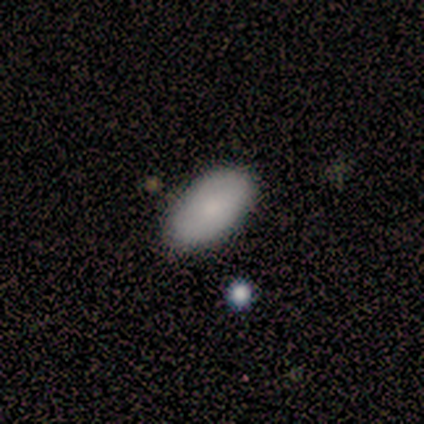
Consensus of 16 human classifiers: Smooth or featured? smooth (69%)
How rounded? in between (100%)
Merging? none (93%)